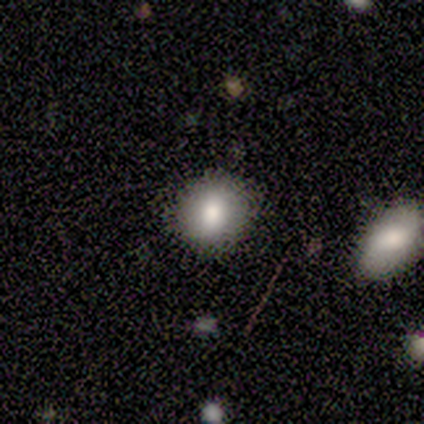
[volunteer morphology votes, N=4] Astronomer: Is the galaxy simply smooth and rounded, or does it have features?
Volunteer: smooth — 75%.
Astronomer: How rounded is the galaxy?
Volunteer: round — 100%.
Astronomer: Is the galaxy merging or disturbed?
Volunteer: none — 75%.